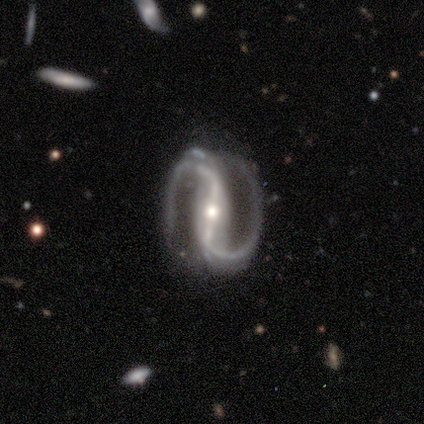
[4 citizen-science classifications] A featured or disk galaxy (100%) with a strong bar (75%), 2 (100%) loose (50%) spiral arms (100%) and a small central bulge (75%).

Vote fractions:
- Smooth or featured? featured or disk: 100% / smooth: 0% / star or artifact: 0%
- Edge-on disk? no: 100% / yes: 0%
- Bar? strong: 75% / no: 25% / weak: 0%
- Spiral arms? yes: 100% / no: 0%
- Spiral winding? loose: 50% / tight: 25% / medium: 25%
- Spiral arm count? 2: 100% / 1: 0% / 3: 0% / 4: 0% / more than 4: 0% / can't tell: 0%
- Bulge size? small: 75% / moderate: 25% / dominant: 0% / large: 0% / none: 0%
- Merging? none: 75% / minor disturbance: 25% / major disturbance: 0% / merger: 0%